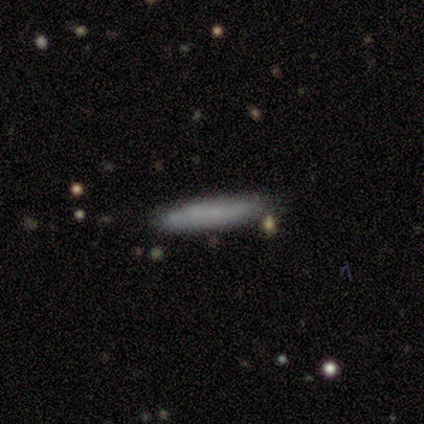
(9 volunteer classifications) Morphology: type=smooth (67%); roundness=cigar-shaped (83%); merging=none (89%).